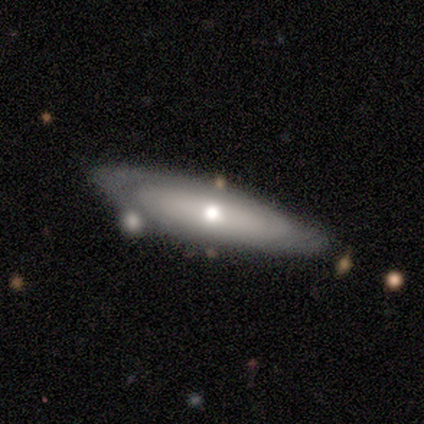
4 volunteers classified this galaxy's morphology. Q: Smooth or featured?
A: smooth (50%); tied with: featured or disk (50%)
Q: How rounded?
A: in between (100%)
Q: Merging?
A: none (50%); runner-up: minor disturbance (25%)